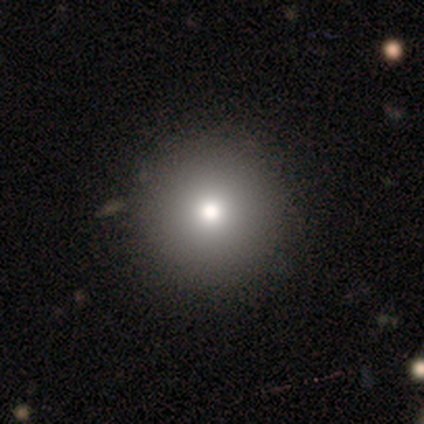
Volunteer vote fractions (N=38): Volunteers were most divided on "smooth or featured": smooth: 79%, featured or disk: 18%, star or artifact: 3%. More confident: how rounded — round (100%); merging — none (78%).